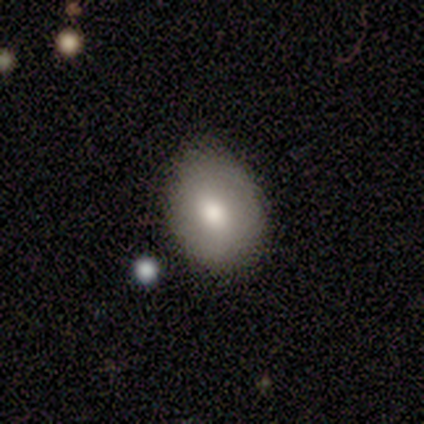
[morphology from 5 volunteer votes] type=smooth (100%); roundness=in between (80%); merging=none (100%).